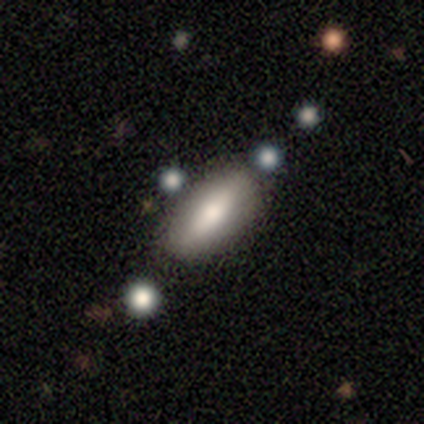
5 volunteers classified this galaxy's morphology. Smooth or featured? smooth (60%)
How rounded? in between (67%)
Merging? none (40%, tied with minor disturbance)